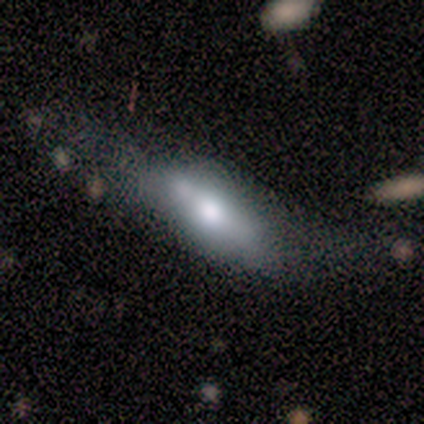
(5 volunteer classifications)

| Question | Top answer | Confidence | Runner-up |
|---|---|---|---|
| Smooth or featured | smooth | 60% | featured or disk (40%) |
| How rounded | in between | 67% | cigar-shaped (33%) |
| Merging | minor disturbance | 40% | tied: major disturbance (40%) |